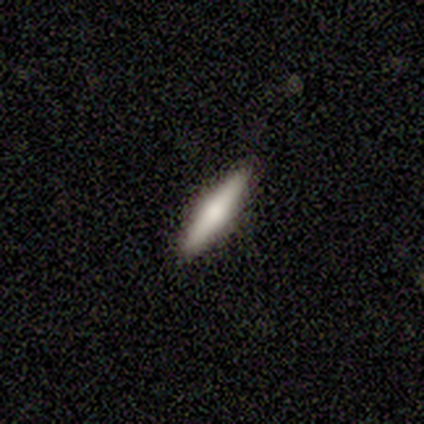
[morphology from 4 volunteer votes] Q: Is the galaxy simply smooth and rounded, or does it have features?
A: smooth — 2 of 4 (50%).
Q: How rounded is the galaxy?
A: cigar-shaped — 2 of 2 (100%).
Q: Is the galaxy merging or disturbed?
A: none — 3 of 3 (100%).